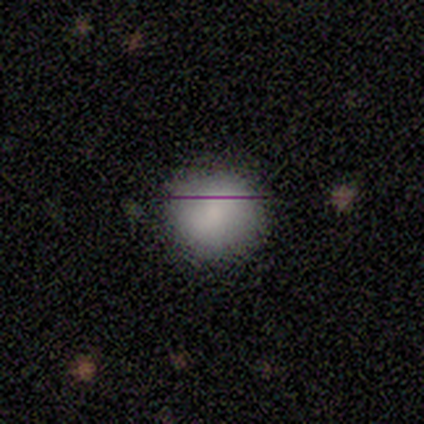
Smooth or featured?
  - smooth: 80% *
  - featured or disk: 20%
  - star or artifact: 0%
How rounded?
  - round: 100% *
  - in between: 0%
  - cigar-shaped: 0%
Merging?
  - none: 100% *
  - minor disturbance: 0%
  - major disturbance: 0%
  - merger: 0%